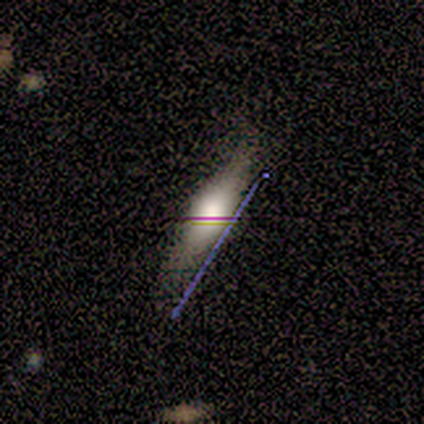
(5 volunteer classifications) smooth_or_featured: star or artifact (p=0.60) [alt: smooth p=0.20]